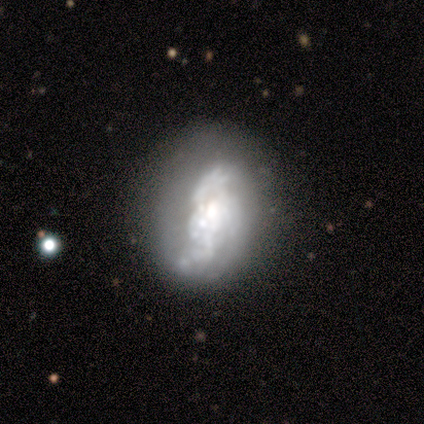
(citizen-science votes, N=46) Volunteers were most divided on "spiral arm count" (2-way tie): 2: 35%, can't tell: 35%, 3: 20%, 1: 5%, 4: 5%, more than 4: 0%. Remaining: edge-on disk — no (97%); smooth or featured — featured or disk (83%); bar — no (73%); spiral winding — loose (55%); spiral arms — yes (54%); merging — major disturbance (38%); bulge size — moderate (30%).